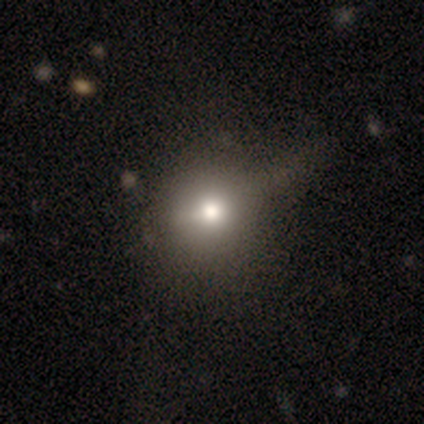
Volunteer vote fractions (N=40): This is likely a smooth galaxy (72%). How rounded: clearly round (90%). Merging: marginally none (42%).